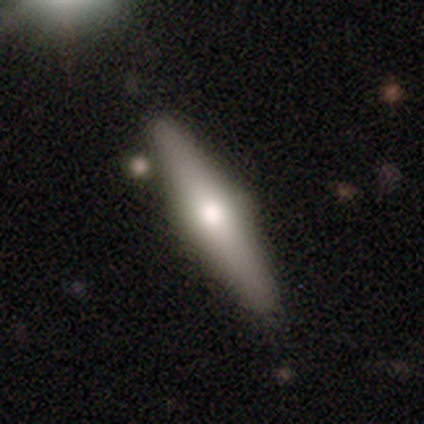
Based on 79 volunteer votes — Smooth or featured? featured or disk (51%)
Edge-on disk? yes (95%)
Edge-on bulge? rounded (95%)
Merging? none (81%)